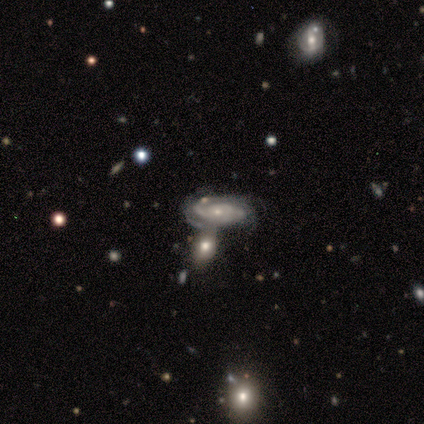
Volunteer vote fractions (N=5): Morphology: type=featured or disk (80%); edge-on=no (75%); bar=no (67%); spiral arms=yes (100%); winding=tight (100%); arm count=4 (67%); bulge=moderate (67%); merging=none (50%, tied with merger).